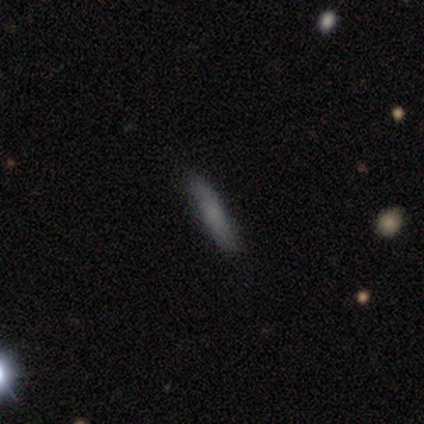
Morphology: type=smooth (80%); roundness=cigar-shaped (100%); merging=none (100%).